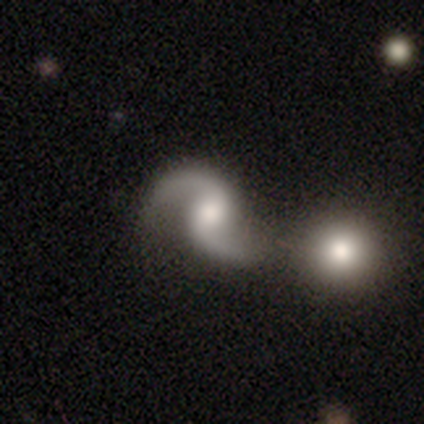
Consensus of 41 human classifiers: This appears to be a featured or disk galaxy (90%) with no bar (46%), 2 (97%) loose (69%) spiral arms (95%) and a moderate central bulge (59%). Merging: merger (38%).